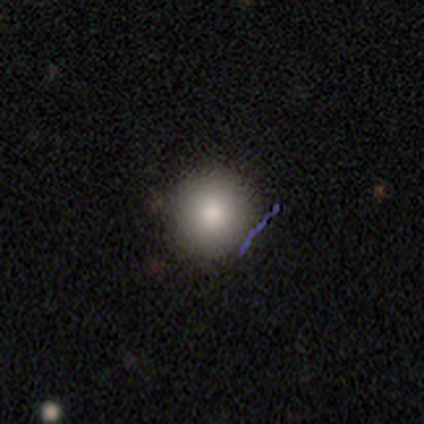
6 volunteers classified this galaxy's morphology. A smooth galaxy with no disk features (100%) that is round (83%).

Vote fractions:
- Smooth or featured? smooth: 100% / featured or disk: 0% / star or artifact: 0%
- How rounded? round: 83% / in between: 17% / cigar-shaped: 0%
- Merging? none: 67% / minor disturbance: 33% / major disturbance: 0% / merger: 0%